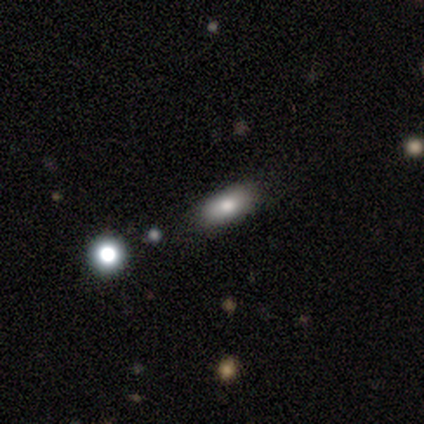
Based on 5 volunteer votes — Smooth or featured? 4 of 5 (80%) said smooth. How rounded? 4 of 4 (100%) said in between. Merging? 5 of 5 (100%) said none.